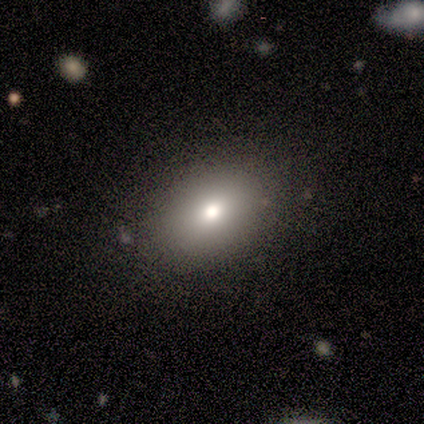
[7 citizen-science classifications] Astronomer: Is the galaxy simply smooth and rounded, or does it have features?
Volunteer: smooth — 71%.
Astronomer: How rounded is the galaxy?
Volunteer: in between — 80%.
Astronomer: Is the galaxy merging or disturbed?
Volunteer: none — 83%.